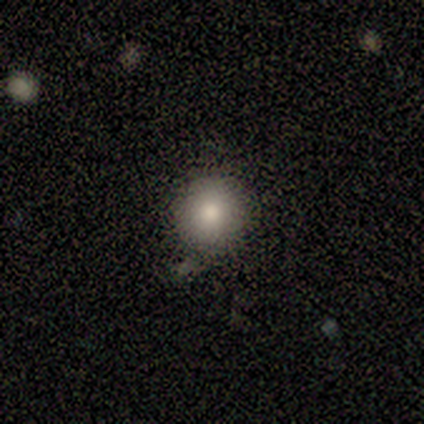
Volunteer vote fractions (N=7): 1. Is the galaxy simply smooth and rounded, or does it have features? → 57% smooth, 43% featured or disk, 0% star or artifact.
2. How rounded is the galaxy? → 100% round, 0% in between, 0% cigar-shaped.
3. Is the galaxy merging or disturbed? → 57% minor disturbance, 43% none, 0% major disturbance, 0% merger.